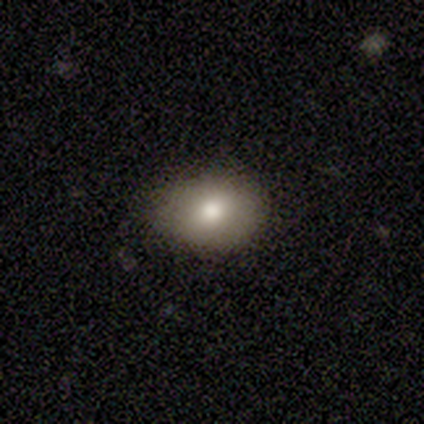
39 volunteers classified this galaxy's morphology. Smooth or featured?
  - smooth: 77% *
  - featured or disk: 13%
  - star or artifact: 10%
How rounded?
  - in between: 73% *
  - round: 27%
  - cigar-shaped: 0%
Merging?
  - none: 69% *
  - minor disturbance: 31%
  - major disturbance: 0%
  - merger: 0%